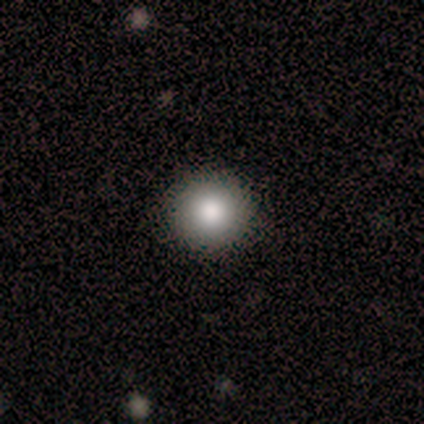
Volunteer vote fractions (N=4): This is clearly a smooth galaxy (100%). How rounded: clearly round (100%). Merging: likely none (75%).